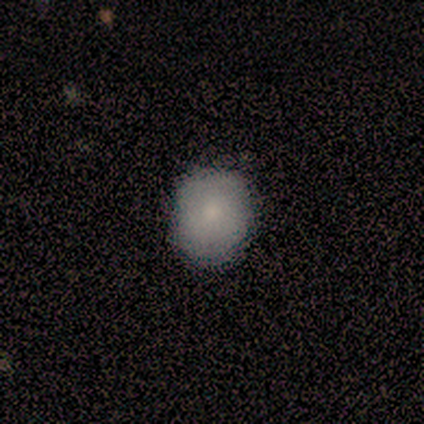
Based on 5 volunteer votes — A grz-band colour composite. It shows a smooth galaxy with no disk features (80%) that is round (75%). Merging: none (100%).